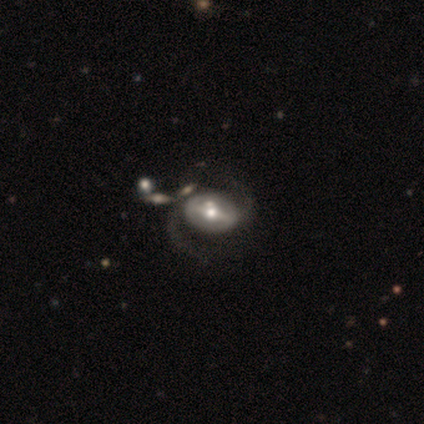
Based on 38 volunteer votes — Q: Smooth or featured?
A: featured or disk (92%); runner-up: smooth (5%)
Q: Edge-on disk?
A: no (94%); runner-up: yes (6%)
Q: Bar?
A: strong (58%); runner-up: weak (36%)
Q: Spiral arms?
A: yes (85%); runner-up: no (15%)
Q: Spiral winding?
A: loose (54%); runner-up: medium (46%)
Q: Spiral arm count?
A: 2 (93%); runner-up: 3 (4%)
Q: Bulge size?
A: moderate (64%); runner-up: small (24%)
Q: Merging?
A: none (41%); runner-up: minor disturbance (30%)